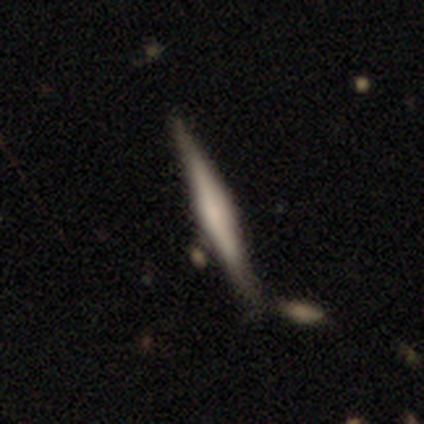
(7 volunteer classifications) featured or disk 71%, smooth 29%, star or artifact 0%. Down the decision tree: edge-on disk — yes (100%); edge-on bulge — boxy (80%); merging — none (43%).